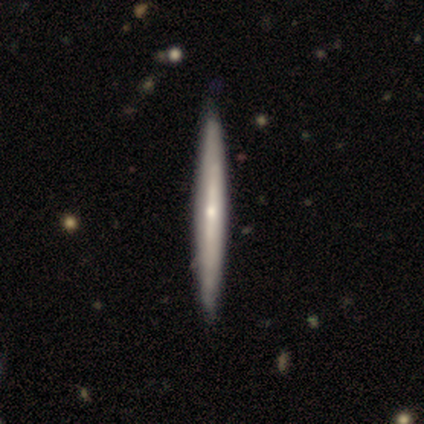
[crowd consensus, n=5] smooth_or_featured: featured or disk (p=0.60) [alt: smooth p=0.20]
disk_edge_on: yes (p=1.00)
edge_on_bulge: rounded (p=0.67) [alt: boxy p=0.33]
merging: none (p=1.00)